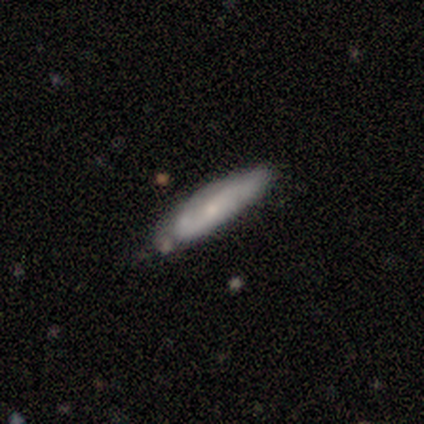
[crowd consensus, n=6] Smooth or featured?
  - featured or disk: 50% *
  - smooth: 33%
  - star or artifact: 17%
Edge-on disk?
  - no: 100% *
  - yes: 0%
Bar?
  - no: 67% *
  - weak: 33%
  - strong: 0%
Spiral arms?
  - yes: 100% *
  - no: 0%
Spiral winding?
  - tight: 33% * (tied)
  - medium: 33% * (tied)
  - loose: 33% * (tied)
Spiral arm count?
  - 2: 67% *
  - can't tell: 33%
  - 1: 0%
  - 3: 0%
  - 4: 0%
  - more than 4: 0%
Bulge size?
  - small: 67% *
  - none: 33%
  - dominant: 0%
  - large: 0%
  - moderate: 0%
Merging?
  - none: 60% *
  - minor disturbance: 40%
  - major disturbance: 0%
  - merger: 0%